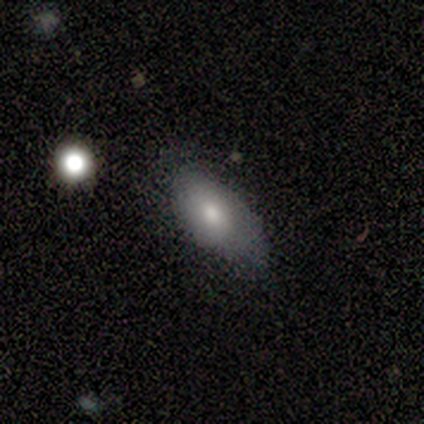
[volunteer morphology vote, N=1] type=smooth (100%); roundness=in between (100%); merging=none (100%).